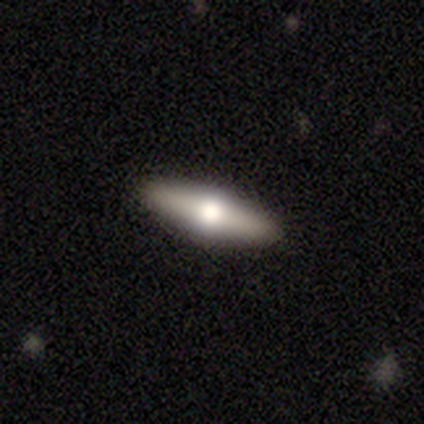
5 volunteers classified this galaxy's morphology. Smooth or featured?
  - smooth: 60% *
  - featured or disk: 40%
  - star or artifact: 0%
How rounded?
  - in between: 67% *
  - cigar-shaped: 33%
  - round: 0%
Merging?
  - none: 80% *
  - minor disturbance: 20%
  - major disturbance: 0%
  - merger: 0%